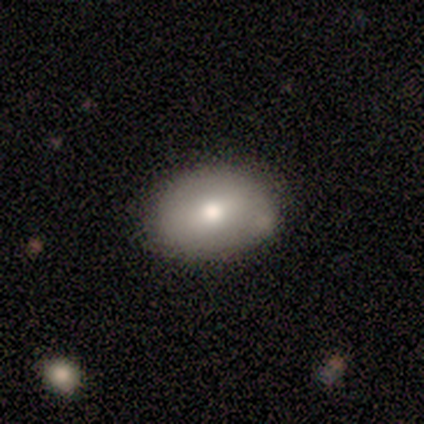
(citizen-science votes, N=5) Morphology: type=smooth (100%); roundness=in between (100%); merging=none (100%).